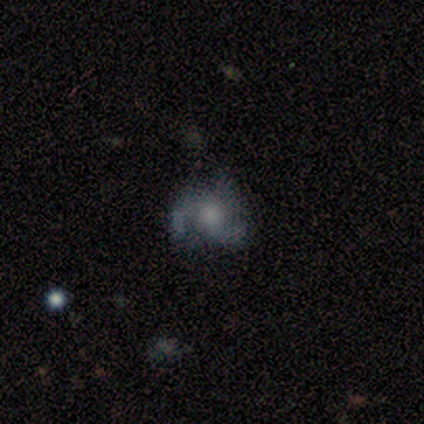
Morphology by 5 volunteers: Q: Smooth or featured?
A: smooth (60%); runner-up: featured or disk (40%)
Q: How rounded?
A: round (67%); runner-up: in between (33%)
Q: Merging?
A: none (80%); runner-up: minor disturbance (20%)